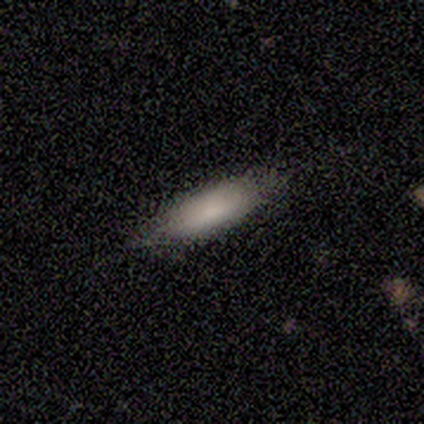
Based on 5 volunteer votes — Smooth or featured?
  - smooth: 100% *
  - featured or disk: 0%
  - star or artifact: 0%
How rounded?
  - cigar-shaped: 60% *
  - in between: 40%
  - round: 0%
Merging?
  - none: 80% *
  - minor disturbance: 20%
  - major disturbance: 0%
  - merger: 0%